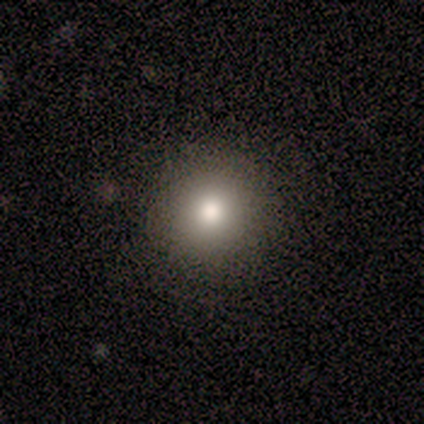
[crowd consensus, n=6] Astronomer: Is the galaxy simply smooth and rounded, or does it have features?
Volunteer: smooth — 67%.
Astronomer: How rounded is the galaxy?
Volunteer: round — 100%.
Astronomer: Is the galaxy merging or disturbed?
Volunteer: none — 100%.